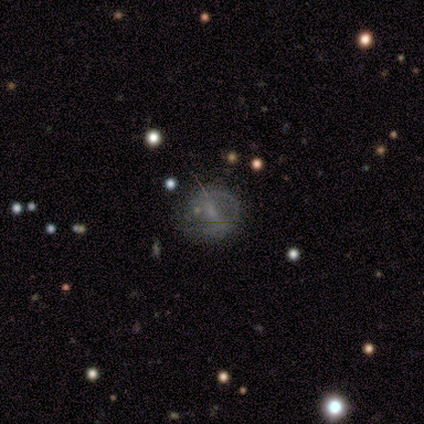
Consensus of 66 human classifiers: Volunteers were most divided on "spiral arms": no: 54%, yes: 46%. Remaining: edge-on disk — no (97%); merging — none (69%); smooth or featured — featured or disk (55%); bulge size — small (51%); bar — weak (46%).